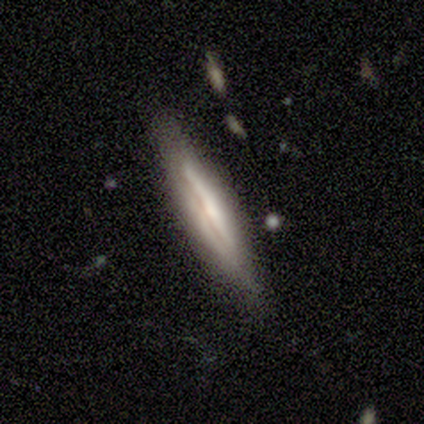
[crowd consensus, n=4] Volunteers were most divided on "smooth or featured" (2-way tie): smooth: 50%, featured or disk: 50%, star or artifact: 0%. More confident: how rounded — cigar-shaped (100%); merging — none (100%).